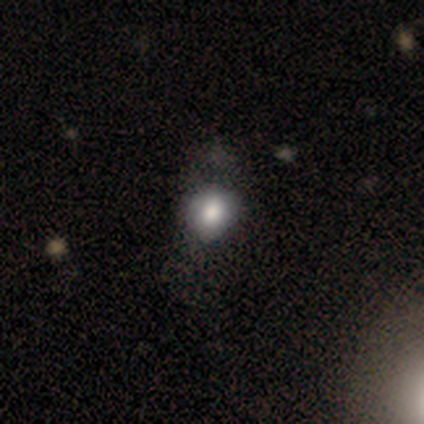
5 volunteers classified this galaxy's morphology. Q: Smooth or featured?
A: smooth (80%); runner-up: featured or disk (20%)
Q: How rounded?
A: round (100%)
Q: Merging?
A: none (40%); tied with: minor disturbance (40%)